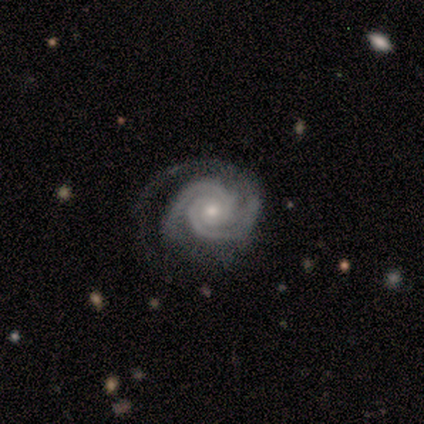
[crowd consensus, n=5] This appears to be a featured or disk galaxy (100%) with no bar (80%), 2 (100%) tight (100%) spiral arms (100%) and a moderate central bulge (60%). Merging: none (60%).